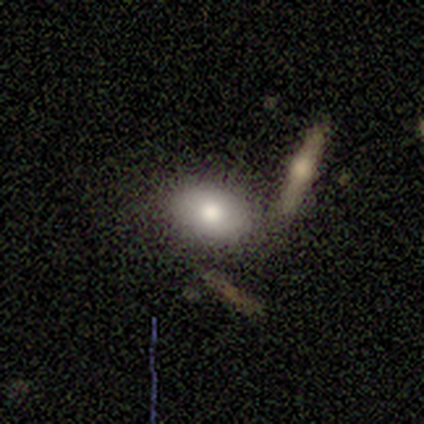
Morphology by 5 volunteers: This appears to be a smooth galaxy with no disk features (60%) that is in between round and cigar-shaped (100%). Merging: none (60%).